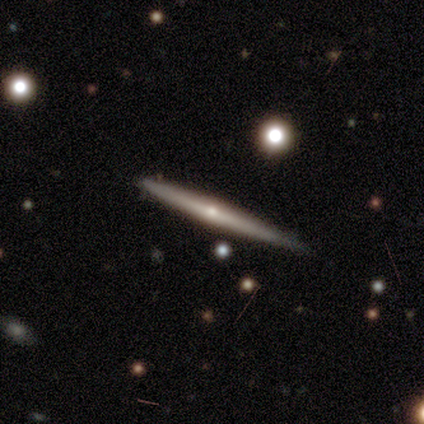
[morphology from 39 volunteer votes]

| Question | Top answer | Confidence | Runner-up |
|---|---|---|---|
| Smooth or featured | featured or disk | 79% | smooth (18%) |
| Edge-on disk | yes | 97% | no (3%) |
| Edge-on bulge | rounded | 77% | none (20%) |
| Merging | none | 53% | minor disturbance (18%) |